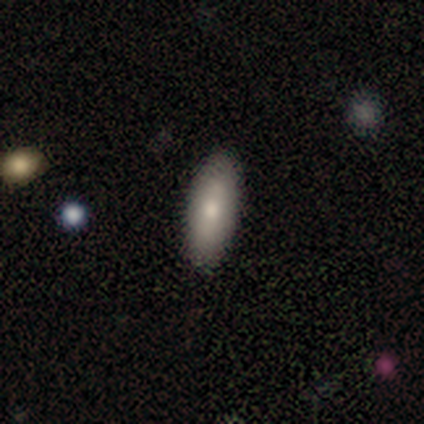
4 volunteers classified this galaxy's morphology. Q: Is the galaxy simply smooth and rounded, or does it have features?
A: smooth — 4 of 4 (100%).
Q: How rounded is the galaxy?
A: in between — 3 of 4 (75%).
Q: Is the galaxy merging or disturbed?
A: none — 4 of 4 (100%).